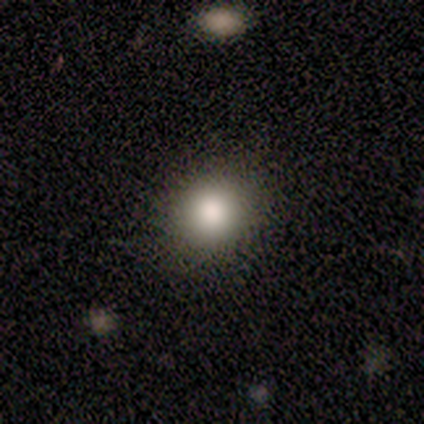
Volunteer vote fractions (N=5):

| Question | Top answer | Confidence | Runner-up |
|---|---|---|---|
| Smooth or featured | smooth | 100% | — |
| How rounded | round | 100% | — |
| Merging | none | 80% | minor disturbance (20%) |